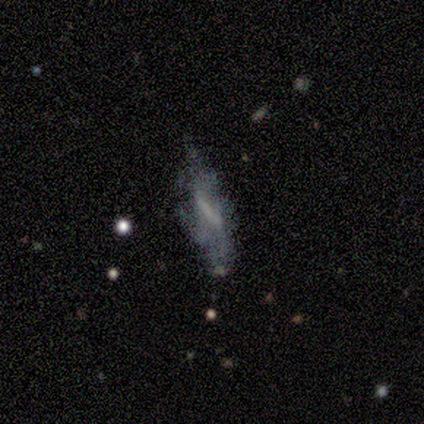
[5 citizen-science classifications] smooth 40% (tied), featured or disk 40% (tied), star or artifact 20%. Down the decision tree: how rounded — in between (50%, tied with cigar-shaped); merging — none (50%, tied with major disturbance).